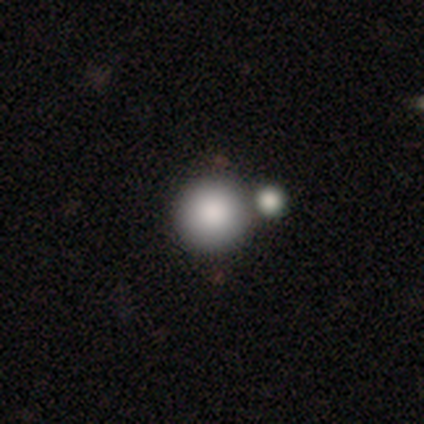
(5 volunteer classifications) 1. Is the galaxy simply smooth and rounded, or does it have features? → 100% smooth, 0% featured or disk, 0% star or artifact.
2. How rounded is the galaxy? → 80% round, 20% in between, 0% cigar-shaped.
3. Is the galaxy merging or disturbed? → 40% none (tied), 40% merger (tied), 20% minor disturbance, 0% major disturbance.